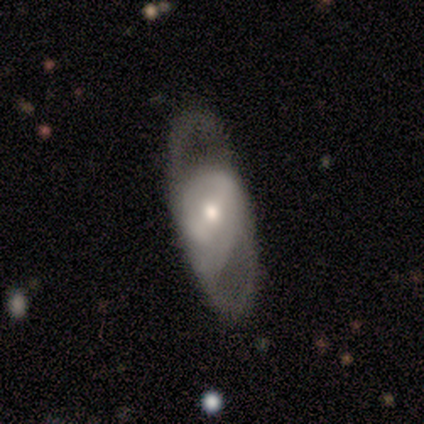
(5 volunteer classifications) This appears to be a featured or disk galaxy (100%) with a weak bar (75%), no spiral arms (75%) and a small central bulge (75%). Merging: none (80%).